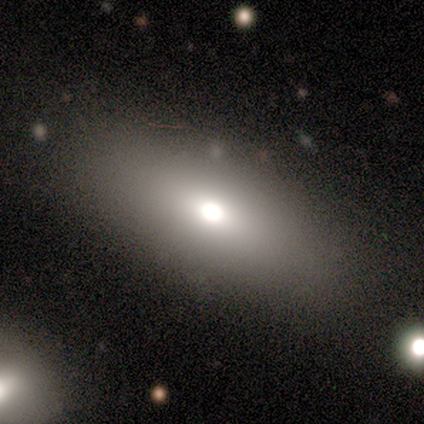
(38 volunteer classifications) Q: Smooth or featured?
A: smooth (84%); runner-up: featured or disk (13%)
Q: How rounded?
A: in between (72%); runner-up: cigar-shaped (28%)
Q: Merging?
A: none (95%); runner-up: minor disturbance (3%)